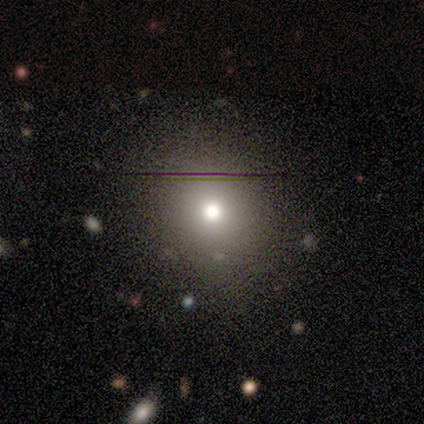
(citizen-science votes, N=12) smooth-or-featured: smooth: 67% | star or artifact: 25% | featured or disk: 8%
  how-rounded: round: 88% | in between: 12% | cigar-shaped: 0%
  merging: none: 78% | minor disturbance: 11% | merger: 11% | major disturbance: 0%